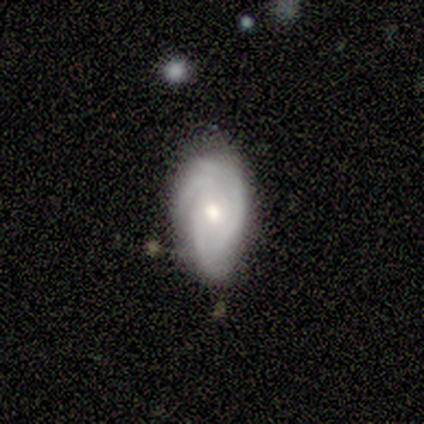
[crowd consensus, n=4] featured or disk 50%, smooth 25%, star or artifact 25%. Down the decision tree: edge-on disk — no (100%); bar — weak (50%, tied with no); spiral arms — yes (100%); spiral arm count — 3 (100%); spiral winding — tight (50%, tied with medium); bulge size — moderate (100%); merging — none (67%).